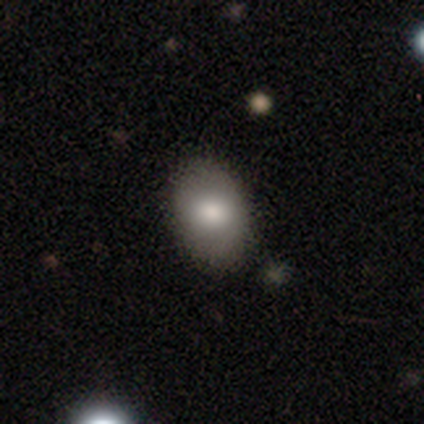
Volunteers were most divided on "merging": none: 62%, minor disturbance: 10%, merger: 5%, major disturbance: 0%. More confident: smooth or featured — smooth (87%); how rounded — in between (79%).